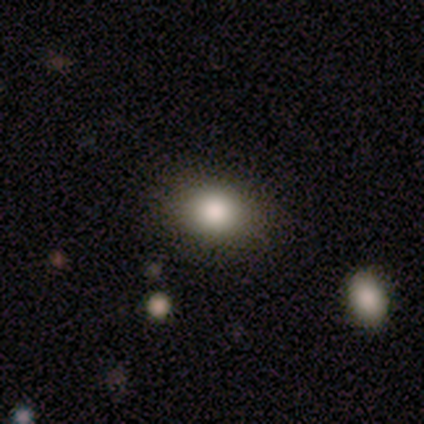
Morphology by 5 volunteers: This is clearly a smooth galaxy (100%). How rounded: likely round (60%). Merging: clearly none (100%).